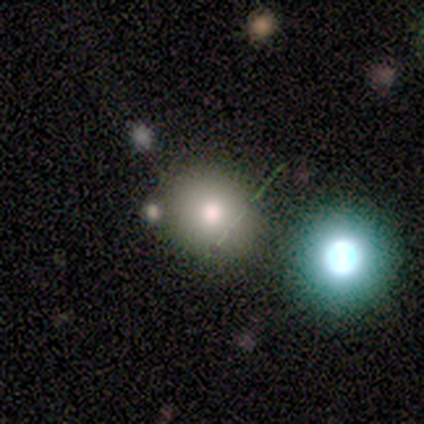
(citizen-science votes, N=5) Morphology: type=smooth (100%); roundness=round (100%); merging=none (100%).